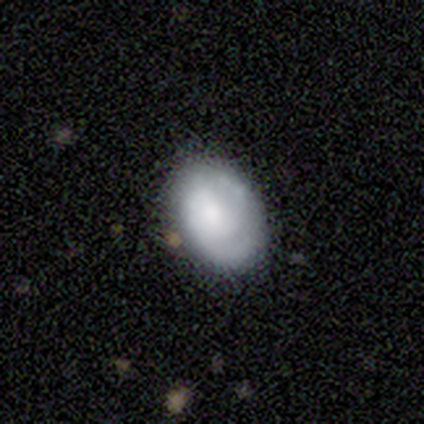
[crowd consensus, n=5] Volunteers were most divided on "merging": none: 60%, minor disturbance: 40%, major disturbance: 0%, merger: 0%. More confident: how rounded — in between (100%); smooth or featured — smooth (80%).